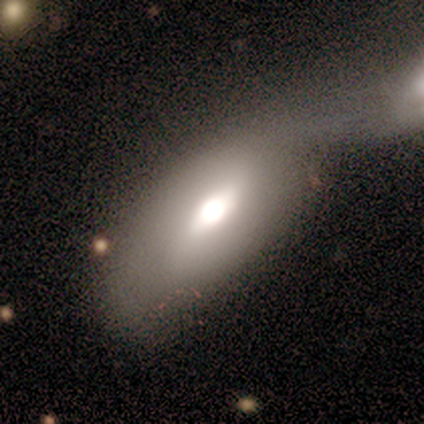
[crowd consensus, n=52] Morphology: type=smooth (60%); roundness=in between (90%); merging=merger (54%).